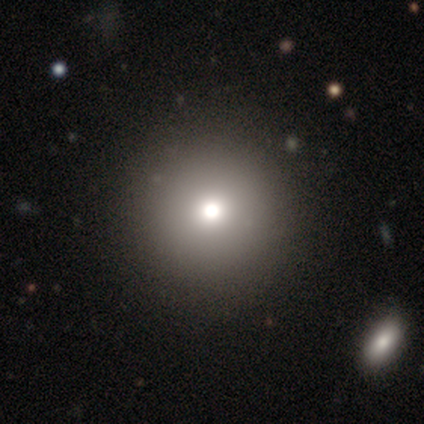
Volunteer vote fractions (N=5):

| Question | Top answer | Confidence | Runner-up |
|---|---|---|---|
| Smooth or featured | featured or disk | 60% | smooth (40%) |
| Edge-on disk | no | 100% | — |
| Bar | no | 100% | — |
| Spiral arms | no | 100% | — |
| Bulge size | moderate | 67% | large (33%) |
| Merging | none | 100% | — |